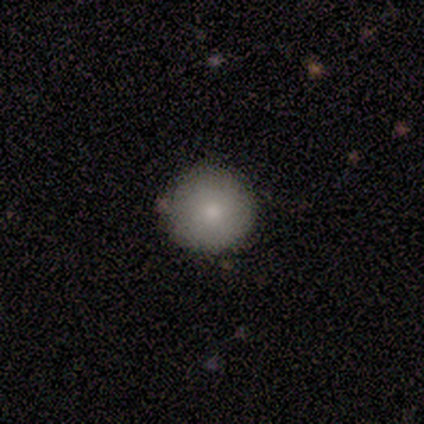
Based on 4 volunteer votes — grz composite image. It shows a smooth galaxy with no disk features (100%) that is round (100%). Merging: none (100%).